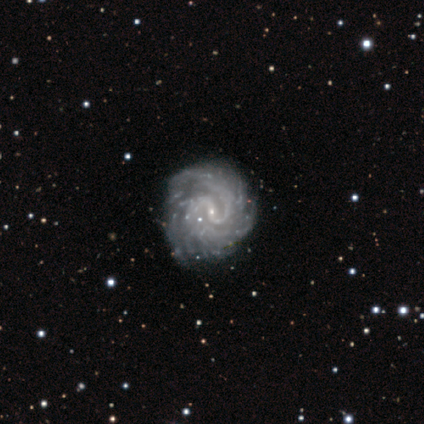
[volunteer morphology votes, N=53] Q: Smooth or featured?
A: featured or disk (96%); runner-up: smooth (2%)
Q: Edge-on disk?
A: no (100%)
Q: Bar?
A: weak (53%); runner-up: no (27%)
Q: Spiral arms?
A: yes (100%)
Q: Spiral winding?
A: tight (61%); runner-up: medium (35%)
Q: Spiral arm count?
A: 2 (35%); runner-up: more than 4 (33%)
Q: Bulge size?
A: small (82%); runner-up: none (12%)
Q: Merging?
A: none (85%); runner-up: minor disturbance (13%)